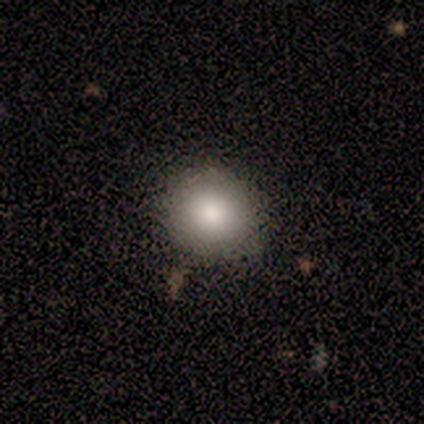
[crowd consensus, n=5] This is clearly a smooth galaxy (80%). How rounded: likely round (75%). Merging: clearly none (80%).